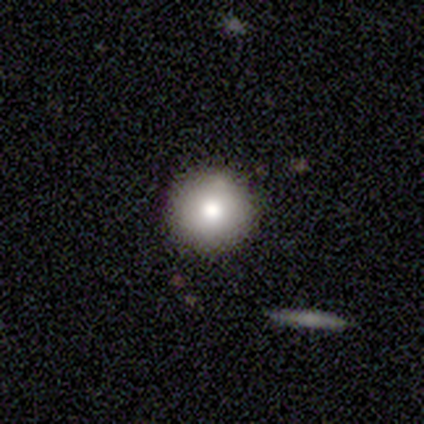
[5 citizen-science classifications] Smooth or featured: smooth — 80% (featured or disk — 20%)
How rounded: round — 100%
Merging: none — 100%